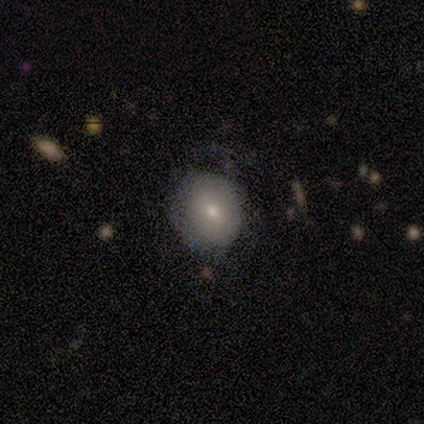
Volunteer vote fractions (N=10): A smooth galaxy with no disk features (60%) that is in between round and cigar-shaped (67%). Merging: none (75%).